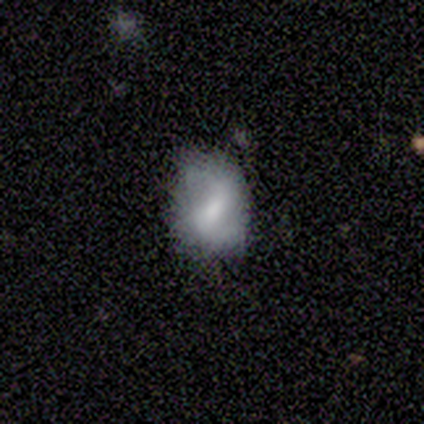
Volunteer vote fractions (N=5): This is clearly a smooth galaxy (80%). How rounded: clearly in between (100%). Merging: clearly minor disturbance (80%).